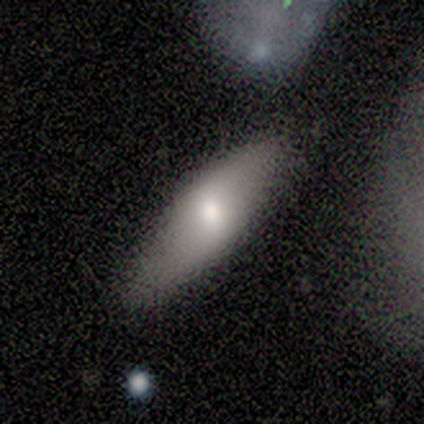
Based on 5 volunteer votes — smooth_or_featured: smooth (p=0.40) [tied with: featured or disk p=0.40]
how_rounded: in between (p=1.00)
merging: none (p=0.75) [alt: merger p=0.25]